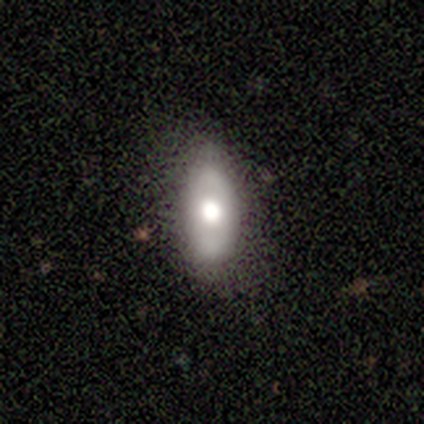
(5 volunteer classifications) smooth_or_featured: smooth (p=0.40) [tied with: featured or disk p=0.40]
how_rounded: in between (p=1.00)
merging: none (p=1.00)